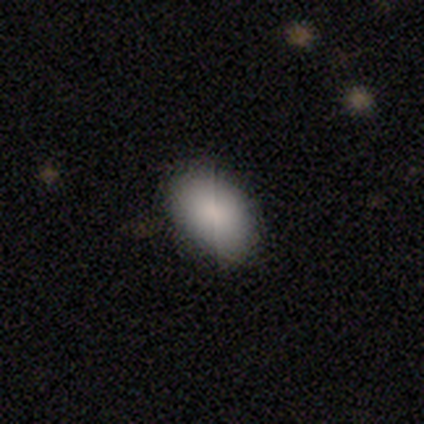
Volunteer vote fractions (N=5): Smooth or featured?
  - smooth: 100% *
  - featured or disk: 0%
  - star or artifact: 0%
How rounded?
  - in between: 100% *
  - round: 0%
  - cigar-shaped: 0%
Merging?
  - none: 80% *
  - minor disturbance: 20%
  - major disturbance: 0%
  - merger: 0%